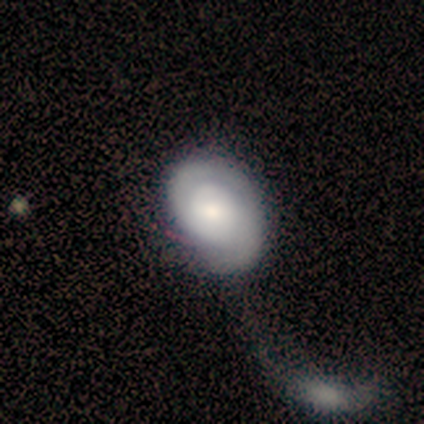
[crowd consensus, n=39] Smooth or featured? featured or disk (67%)
Edge-on disk? no (100%)
Bar? no (73%)
Spiral arms? yes (85%)
Spiral winding? tight (59%)
Spiral arm count? 2 (68%)
Bulge size? moderate (58%)
Merging? major disturbance (31%, tied with merger)